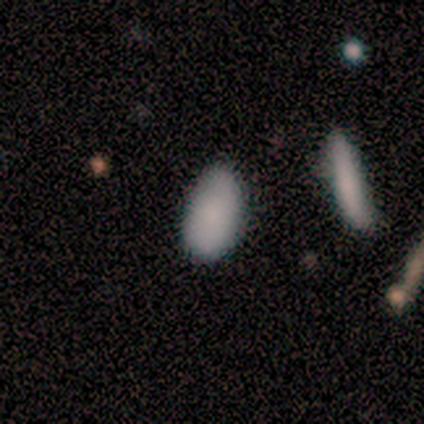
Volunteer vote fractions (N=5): Smooth or featured? 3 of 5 (60%) said smooth. How rounded? 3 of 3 (100%) said in between. Merging? 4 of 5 (80%) said none.